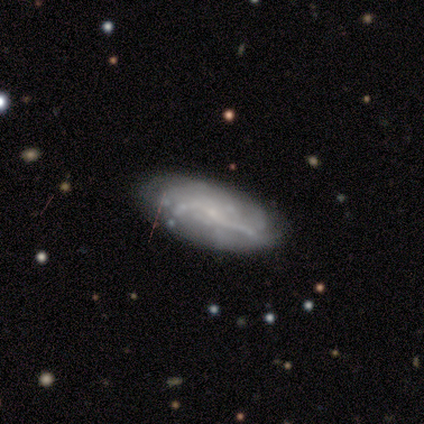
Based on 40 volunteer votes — Overall: featured or disk (68%). Edge-on disk: no (100%). Bar: no (59%; weak 37%). Spiral arms: yes (70%). Spiral arm count: can't tell (63%; 2 26%). Spiral winding: medium (42%; tight 37%). Bulge size: small (63%; none 26%). Merging: none (68%).